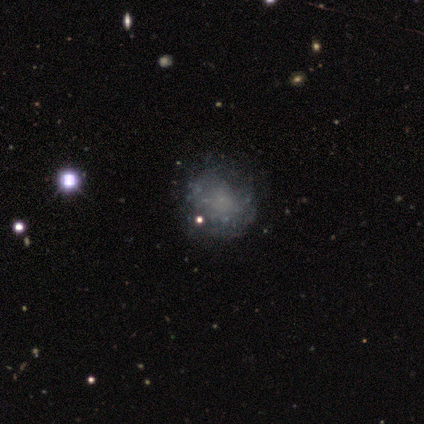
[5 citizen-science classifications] Morphology: type=smooth (40%, tied with star or artifact); roundness=round (50%, tied with in between); merging=none (100%).